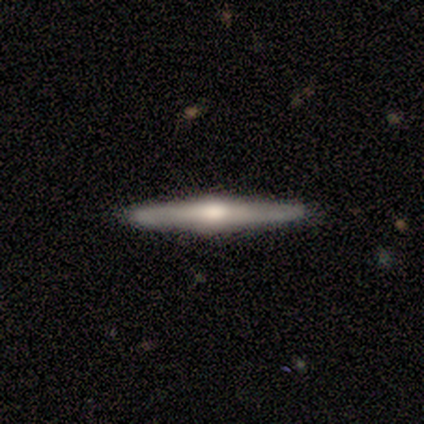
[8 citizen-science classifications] Smooth or featured?
  - featured or disk: 88% *
  - star or artifact: 12%
  - smooth: 0%
Edge-on disk?
  - yes: 86% *
  - no: 14%
Edge-on bulge?
  - rounded: 83% *
  - boxy: 17%
  - none: 0%
Merging?
  - none: 86% *
  - minor disturbance: 14%
  - major disturbance: 0%
  - merger: 0%